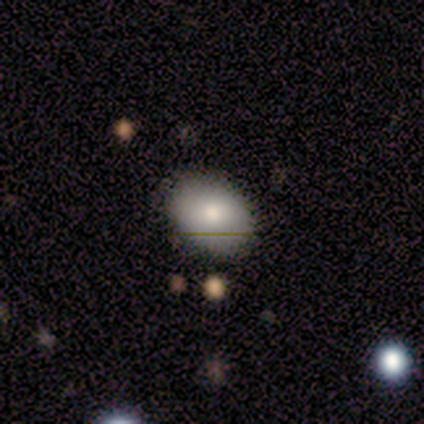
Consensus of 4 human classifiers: smooth 50%, featured or disk 25%, star or artifact 25%. Down the decision tree: how rounded — in between (100%); merging — none (100%).